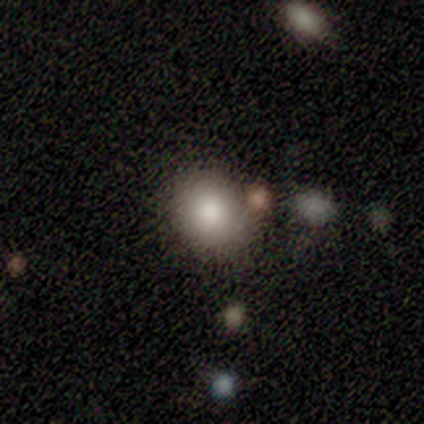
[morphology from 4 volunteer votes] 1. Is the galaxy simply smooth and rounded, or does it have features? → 75% smooth, 25% featured or disk, 0% star or artifact.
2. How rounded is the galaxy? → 67% round, 33% in between, 0% cigar-shaped.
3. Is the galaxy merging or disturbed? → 75% none, 25% minor disturbance, 0% major disturbance, 0% merger.